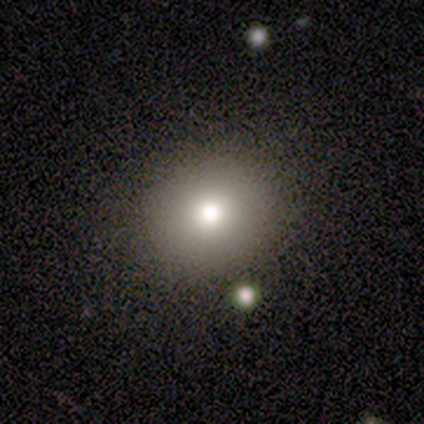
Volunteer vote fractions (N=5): Volunteers were most divided on "smooth or featured": smooth: 80%, featured or disk: 20%, star or artifact: 0%. More confident: how rounded — round (100%); merging — none (100%).